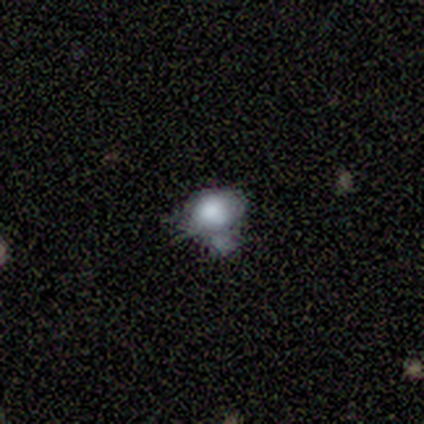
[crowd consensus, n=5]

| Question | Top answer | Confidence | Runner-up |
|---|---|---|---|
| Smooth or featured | smooth | 80% | star or artifact (20%) |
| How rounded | in between | 75% | round (25%) |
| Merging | merger | 50% | minor disturbance (25%) |